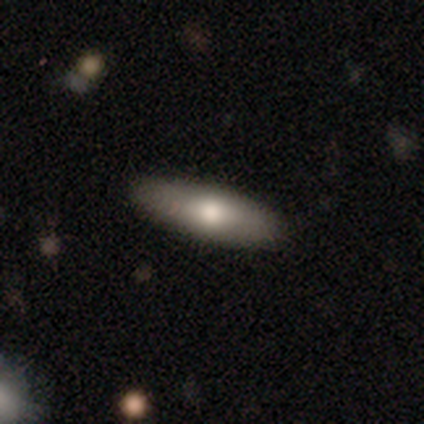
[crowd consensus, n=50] Q: Smooth or featured?
A: smooth (72%); runner-up: featured or disk (20%)
Q: How rounded?
A: cigar-shaped (61%); runner-up: in between (39%)
Q: Merging?
A: none (85%); runner-up: minor disturbance (15%)